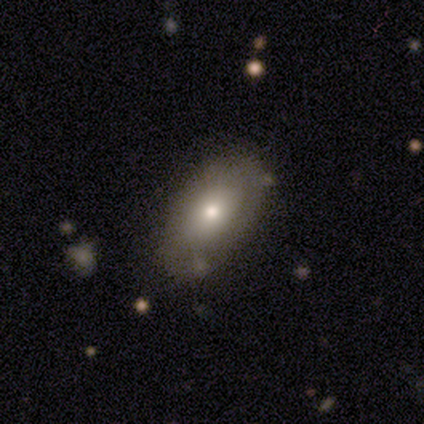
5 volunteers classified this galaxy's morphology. Q: Smooth or featured?
A: smooth (80%); runner-up: featured or disk (20%)
Q: How rounded?
A: in between (100%)
Q: Merging?
A: none (80%); runner-up: minor disturbance (20%)